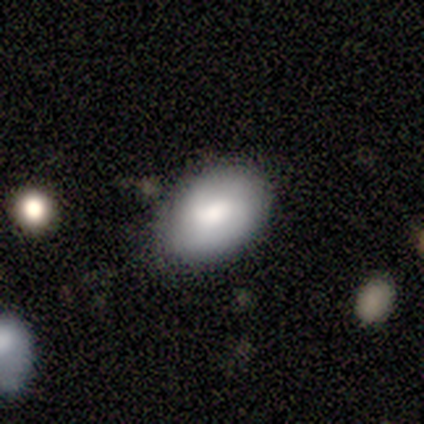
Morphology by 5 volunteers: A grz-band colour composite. It shows a smooth galaxy with no disk features (80%) that is in between round and cigar-shaped (100%). Merging: none (60%).